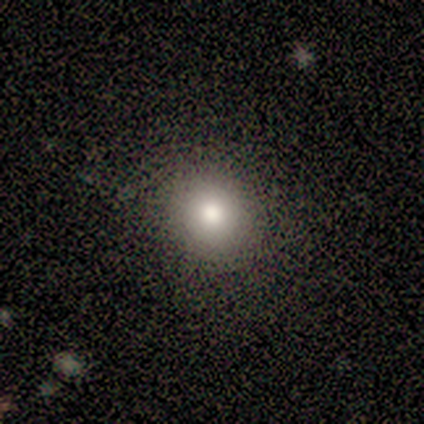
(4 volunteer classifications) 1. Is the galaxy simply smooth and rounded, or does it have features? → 50% smooth, 25% featured or disk, 25% star or artifact.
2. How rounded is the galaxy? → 50% round (tied), 50% in between (tied), 0% cigar-shaped.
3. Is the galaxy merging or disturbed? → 67% none, 33% minor disturbance, 0% major disturbance, 0% merger.